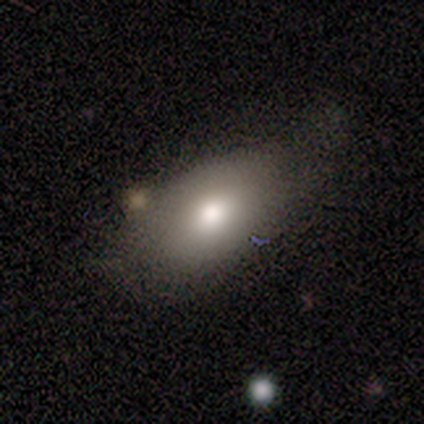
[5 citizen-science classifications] smooth_or_featured: smooth (p=0.80) [alt: featured or disk p=0.20]
how_rounded: in between (p=1.00)
merging: minor disturbance (p=0.60) [alt: none p=0.40]